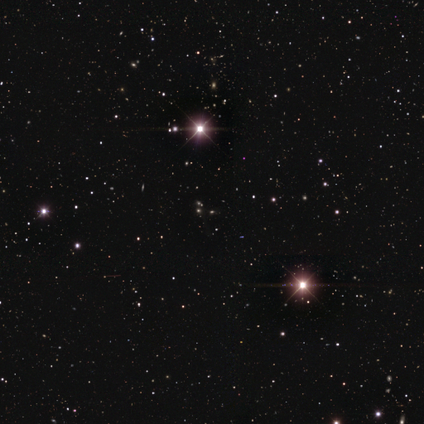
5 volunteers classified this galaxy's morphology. A star or artifact, not a galaxy (80%).

Vote fractions:
- Smooth or featured? star or artifact: 80% / smooth: 20% / featured or disk: 0%